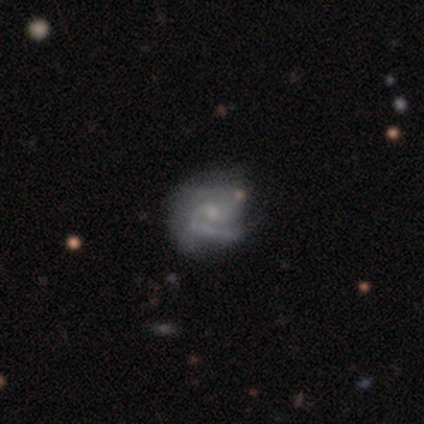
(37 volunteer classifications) Volunteers were most divided on "spiral winding": tight: 57%, medium: 37%, loose: 7%. Remaining: edge-on disk — no (100%); spiral arms — yes (94%); smooth or featured — featured or disk (86%); bar — no (78%); spiral arm count — 2 (67%); bulge size — small (56%); merging — none (46%).